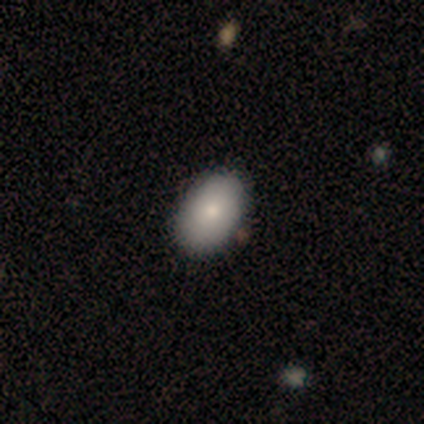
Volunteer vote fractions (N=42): Smooth or featured: smooth — 76% (featured or disk — 19%)
How rounded: in between — 94% (round — 6%)
Merging: none — 85% (minor disturbance — 15%)